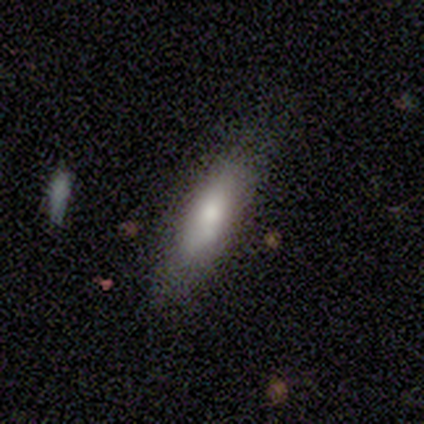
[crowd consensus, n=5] Q: Smooth or featured?
A: smooth (100%)
Q: How rounded?
A: cigar-shaped (60%); runner-up: in between (40%)
Q: Merging?
A: none (80%); runner-up: minor disturbance (20%)